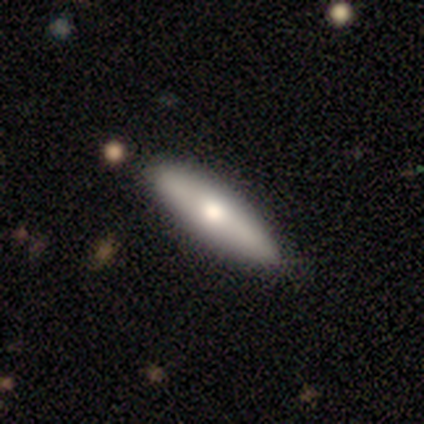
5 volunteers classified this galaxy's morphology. Smooth or featured?
  - smooth: 80% *
  - featured or disk: 20%
  - star or artifact: 0%
How rounded?
  - cigar-shaped: 75% *
  - in between: 25%
  - round: 0%
Merging?
  - none: 100% *
  - minor disturbance: 0%
  - major disturbance: 0%
  - merger: 0%